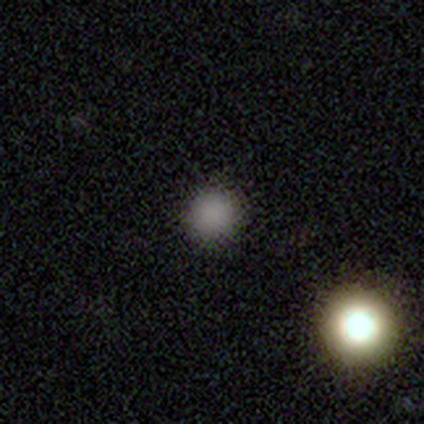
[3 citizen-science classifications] Volunteers were most divided on "smooth or featured": smooth: 67%, star or artifact: 33%, featured or disk: 0%. More confident: how rounded — round (100%); merging — none (100%).